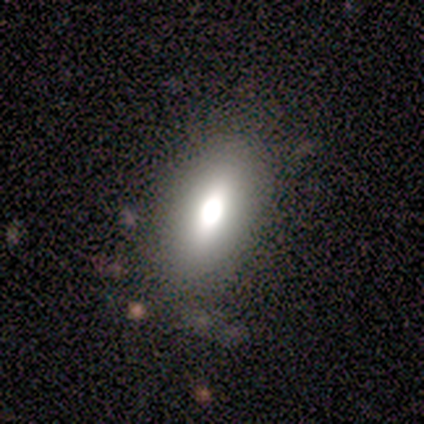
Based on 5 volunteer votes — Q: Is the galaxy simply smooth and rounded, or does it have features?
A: smooth — 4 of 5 (80%).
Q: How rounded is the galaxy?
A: in between — 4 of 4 (100%).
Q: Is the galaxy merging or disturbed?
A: none — 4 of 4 (100%).